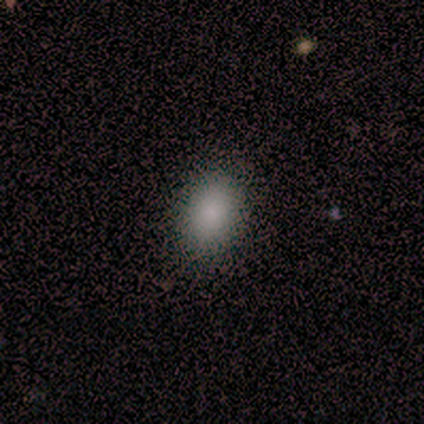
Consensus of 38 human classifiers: This appears to be a smooth galaxy with no disk features (100%) that is in between round and cigar-shaped (87%). Merging: none (92%).